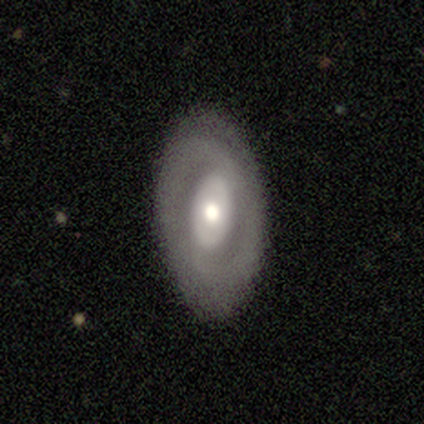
Morphology: type=featured or disk (81%); edge-on=no (94%); bar=no (56%); spiral arms=yes (62%); winding=tight (65%); arm count=2 (60%); bulge=moderate (59%); merging=none (78%).